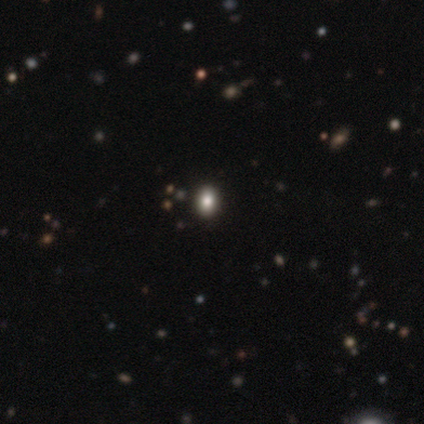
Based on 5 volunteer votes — Morphology: type=smooth (60%); roundness=round (67%); merging=none (100%).